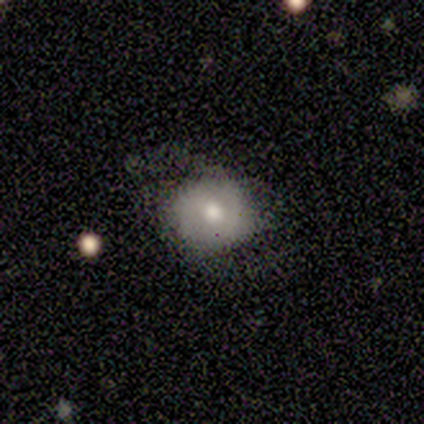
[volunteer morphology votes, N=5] A smooth galaxy with no disk features (40%, tied with featured or disk) that is round (100%).

Vote fractions:
- Smooth or featured? smooth: 40% (tied) / featured or disk: 40% (tied) / star or artifact: 20%
- How rounded? round: 100% / in between: 0% / cigar-shaped: 0%
- Merging? none: 75% / minor disturbance: 25% / major disturbance: 0% / merger: 0%